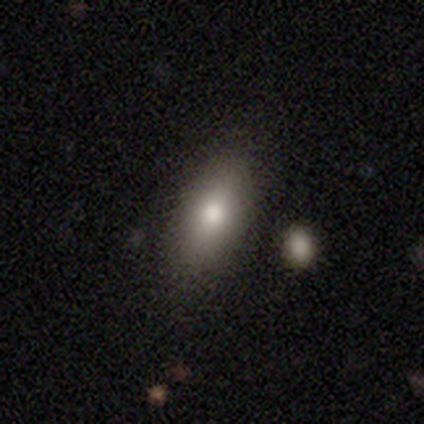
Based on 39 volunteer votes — Smooth or featured: smooth — 87% (featured or disk — 10%)
How rounded: in between — 79% (cigar-shaped — 18%)
Merging: none — 84% (minor disturbance — 11%)